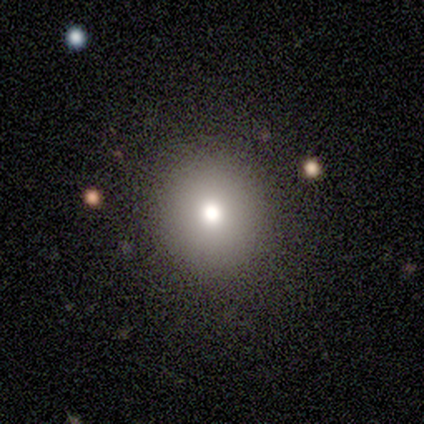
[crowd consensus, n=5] Morphology: type=smooth (60%); roundness=round (100%); merging=none (100%).